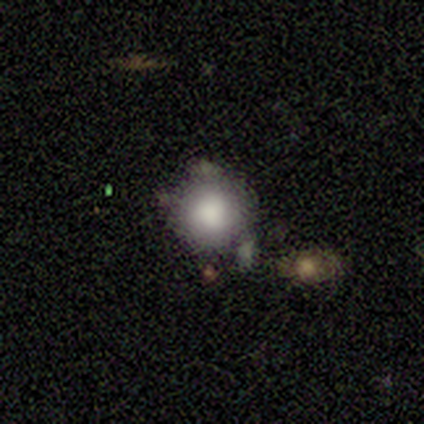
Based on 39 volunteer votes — A smooth galaxy with no disk features (85%) that is round (94%). Merging: none (57%).